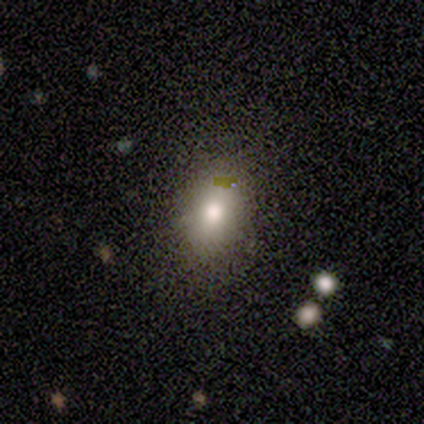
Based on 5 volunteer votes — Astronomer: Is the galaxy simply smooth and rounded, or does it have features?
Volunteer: smooth — 60%.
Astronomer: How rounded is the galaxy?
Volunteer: in between — 100%.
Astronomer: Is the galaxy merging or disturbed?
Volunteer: none — 100%.